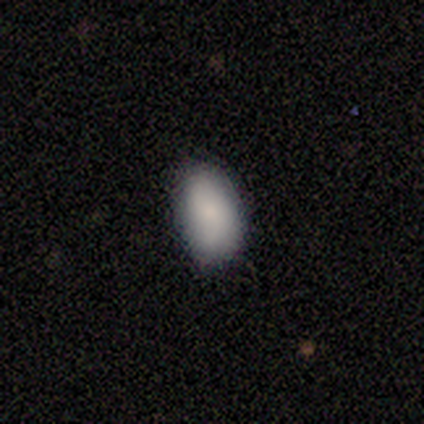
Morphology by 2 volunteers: A smooth galaxy with no disk features (100%) that is in between round and cigar-shaped (100%). Merging: none (100%).